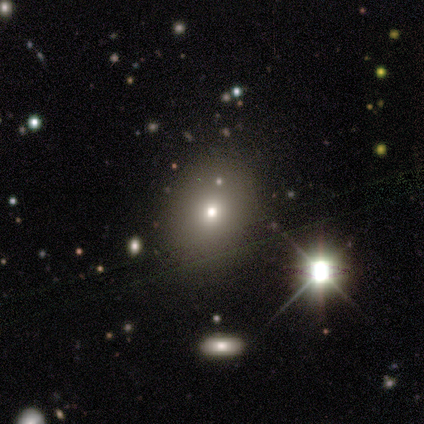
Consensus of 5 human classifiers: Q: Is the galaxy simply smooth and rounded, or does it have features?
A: smooth — 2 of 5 (40%, tied with star or artifact).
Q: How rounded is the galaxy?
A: round — 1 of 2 (50%, tied with in between).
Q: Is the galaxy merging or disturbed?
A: none — 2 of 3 (67%).